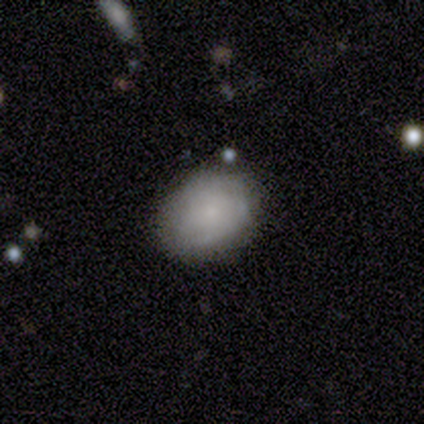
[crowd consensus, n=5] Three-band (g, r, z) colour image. It shows a smooth galaxy with no disk features (40%, tied with star or artifact) that is round (50%, tied with in between). Merging: none (100%).